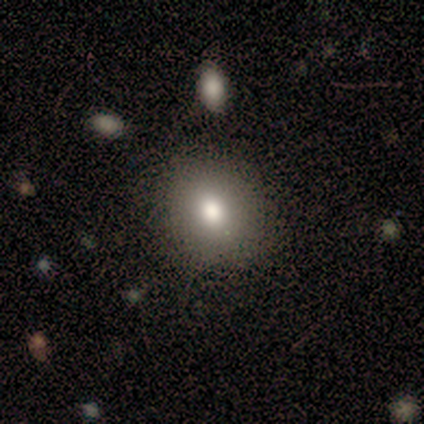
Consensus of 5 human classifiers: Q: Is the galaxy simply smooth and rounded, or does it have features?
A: smooth — 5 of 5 (100%).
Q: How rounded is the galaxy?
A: round — 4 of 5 (80%).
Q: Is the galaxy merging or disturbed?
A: none — 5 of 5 (100%).